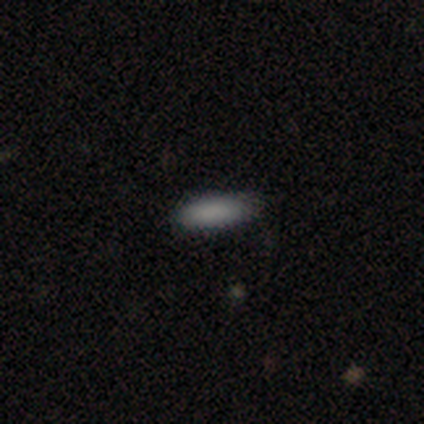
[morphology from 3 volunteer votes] smooth 100%, featured or disk 0%, star or artifact 0%. Down the decision tree: how rounded — cigar-shaped (67%); merging — none (67%).